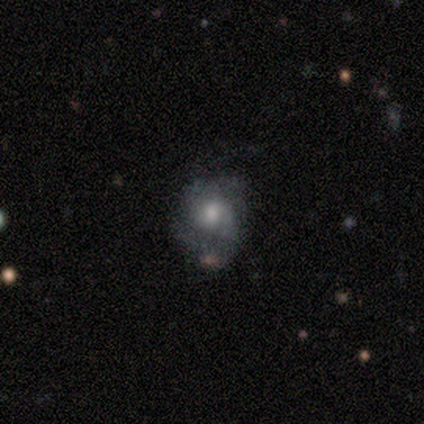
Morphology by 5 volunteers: Smooth or featured: smooth — 60% (featured or disk — 40%)
How rounded: round — 67% (in between — 33%)
Merging: minor disturbance — 80% (major disturbance — 20%)